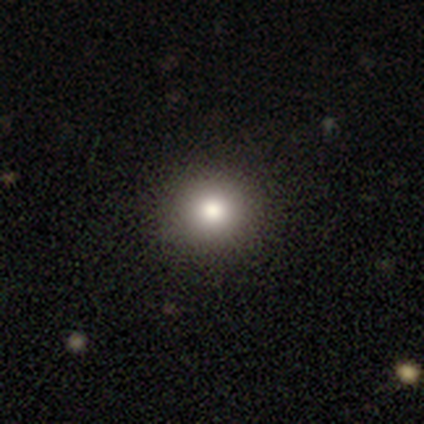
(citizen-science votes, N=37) Volunteers were most divided on "smooth or featured": smooth: 84%, star or artifact: 11%, featured or disk: 5%. More confident: merging — none (94%); how rounded — round (94%).